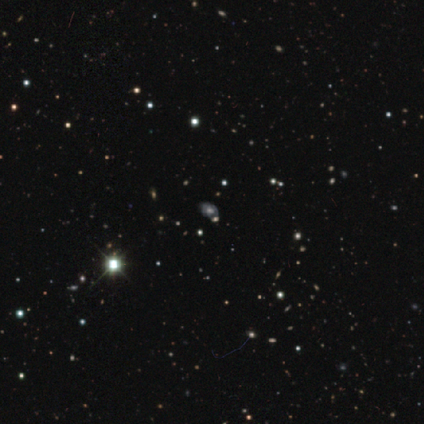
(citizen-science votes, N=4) Smooth or featured? star or artifact (75%)